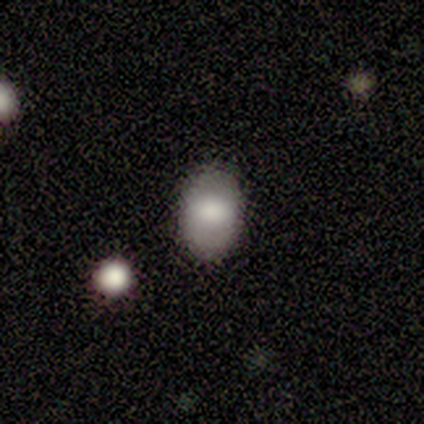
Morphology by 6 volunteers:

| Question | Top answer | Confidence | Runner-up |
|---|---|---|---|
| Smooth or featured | smooth | 67% | featured or disk (33%) |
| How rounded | in between | 100% | — |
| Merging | none | 83% | minor disturbance (17%) |